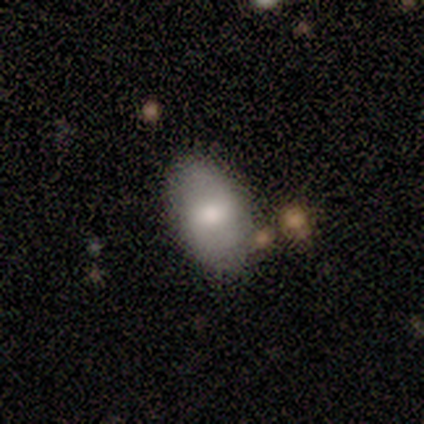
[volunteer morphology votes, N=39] Smooth or featured? smooth (69%)
How rounded? in between (100%)
Merging? none (59%)